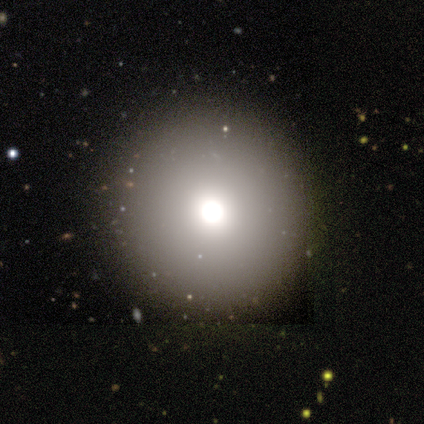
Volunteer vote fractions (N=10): This appears to be a star or artifact, not a galaxy (60%).